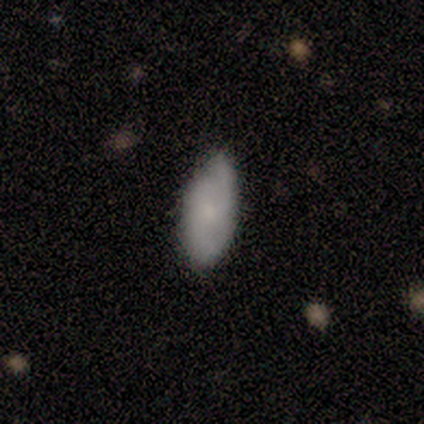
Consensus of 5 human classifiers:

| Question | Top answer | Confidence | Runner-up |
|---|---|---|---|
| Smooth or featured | featured or disk | 60% | smooth (40%) |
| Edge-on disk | no | 67% | yes (33%) |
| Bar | no | 100% | — |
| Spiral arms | yes | 100% | — |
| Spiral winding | medium | 100% | — |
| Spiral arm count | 2 | 100% | — |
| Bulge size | moderate | 50% | tied: none (50%) |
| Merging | none | 60% | minor disturbance (40%) |